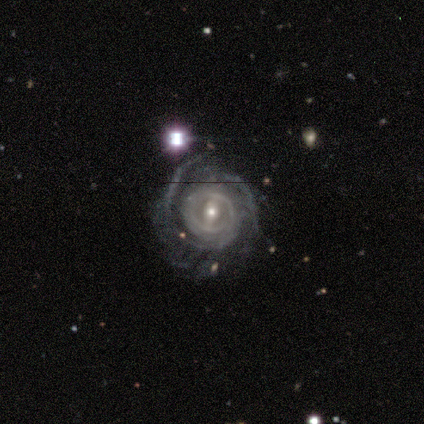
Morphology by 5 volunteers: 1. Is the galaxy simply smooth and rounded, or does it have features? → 100% featured or disk, 0% smooth, 0% star or artifact.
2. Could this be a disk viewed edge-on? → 100% no, 0% yes.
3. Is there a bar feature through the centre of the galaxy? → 60% strong, 40% no, 0% weak.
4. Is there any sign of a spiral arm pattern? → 100% yes, 0% no.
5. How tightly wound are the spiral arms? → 60% tight, 40% medium, 0% loose.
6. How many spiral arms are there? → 40% 2 (tied), 40% can't tell (tied), 20% 4, 0% 1, 0% 3, 0% more than 4.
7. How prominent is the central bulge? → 60% moderate, 40% small, 0% dominant, 0% large, 0% none.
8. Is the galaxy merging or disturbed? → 80% none, 20% major disturbance, 0% minor disturbance, 0% merger.